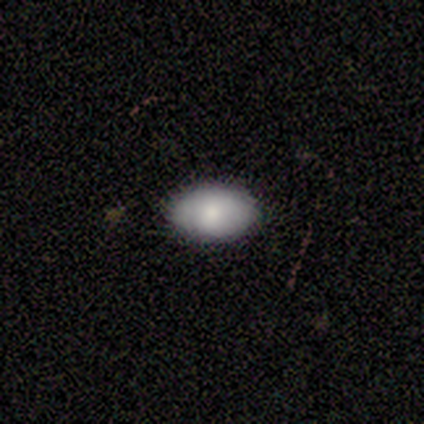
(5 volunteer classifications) Smooth or featured?
  - smooth: 100% *
  - featured or disk: 0%
  - star or artifact: 0%
How rounded?
  - in between: 100% *
  - round: 0%
  - cigar-shaped: 0%
Merging?
  - none: 80% *
  - minor disturbance: 20%
  - major disturbance: 0%
  - merger: 0%